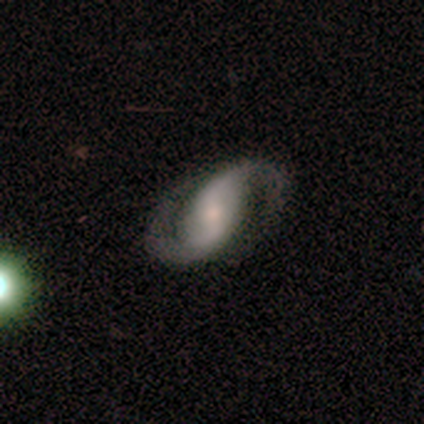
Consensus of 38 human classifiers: Smooth or featured? 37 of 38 (97%) said featured or disk. Edge-on disk? 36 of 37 (97%) said no. Bar? 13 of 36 (36%) said strong. Spiral arms? 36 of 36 (100%) said yes. Spiral winding? 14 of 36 (39%) said medium. Spiral arm count? 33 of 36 (92%) said 2. Bulge size? 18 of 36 (50%) said moderate. Merging? 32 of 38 (84%) said none.